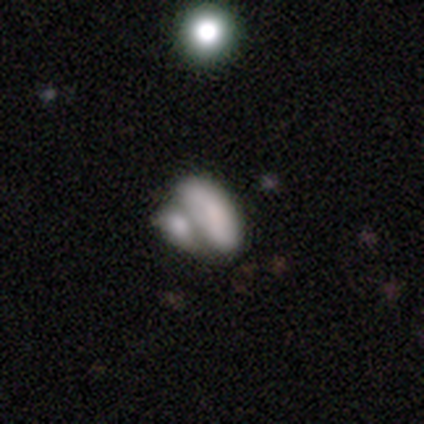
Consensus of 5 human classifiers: This is likely a smooth galaxy (60%). How rounded: likely in between (67%). Merging: likely none (60%).